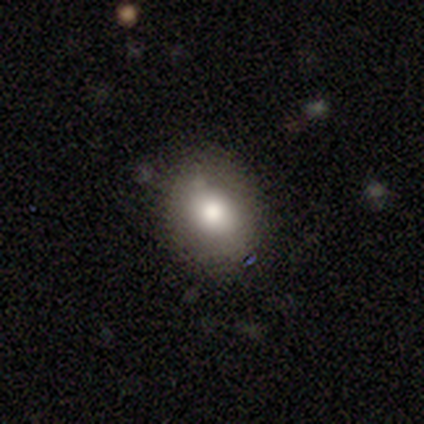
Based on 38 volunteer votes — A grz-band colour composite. It shows a smooth galaxy with no disk features (76%) that is in between round and cigar-shaped (52%). Merging: none (89%).